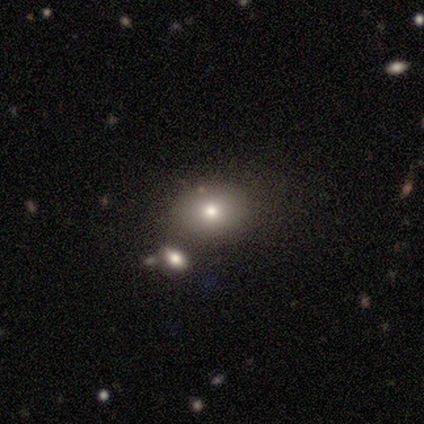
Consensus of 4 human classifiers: A smooth galaxy with no disk features (100%) that is round (100%). Merging: none (75%).